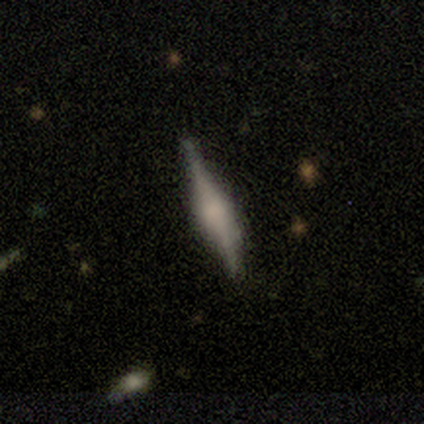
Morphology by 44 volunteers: Smooth or featured: featured or disk — 66% (smooth — 32%)
Edge-on disk: yes — 100%
Edge-on bulge: rounded — 66% (boxy — 28%)
Merging: none — 74% (minor disturbance — 14%)